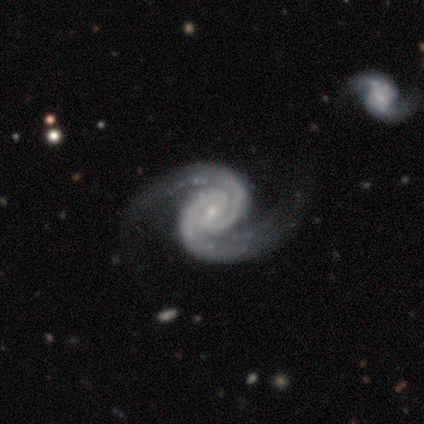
A featured or disk galaxy (100%) with no bar (100%), 2 (100%) medium (60%) spiral arms (100%) and a small central bulge (80%). Merging: none (60%).